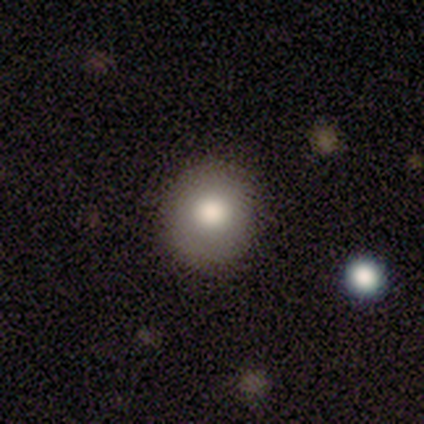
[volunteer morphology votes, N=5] type=smooth (80%); roundness=round (75%); merging=none (100%).